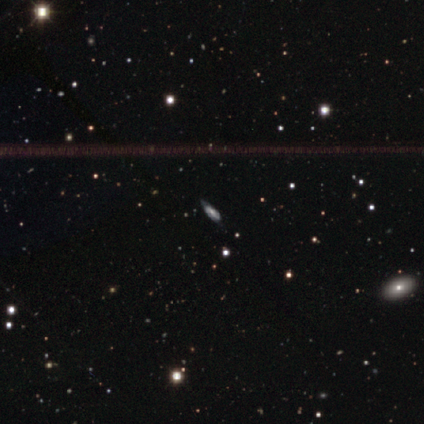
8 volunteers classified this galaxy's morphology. Volunteers were most divided on "edge-on disk" (2-way tie): yes: 50%, no: 50%. More confident: smooth or featured — featured or disk (75%); merging — none (71%); edge-on bulge — rounded (67%).